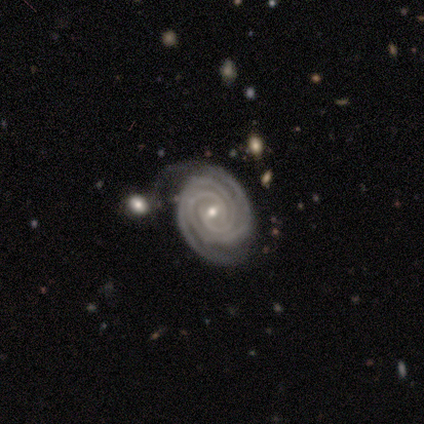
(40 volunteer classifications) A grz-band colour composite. It shows a featured or disk galaxy (92%) with a weak bar (46%), 2 (47%) tight (94%) spiral arms (97%) and a small central bulge (62%). Merging: none (53%).